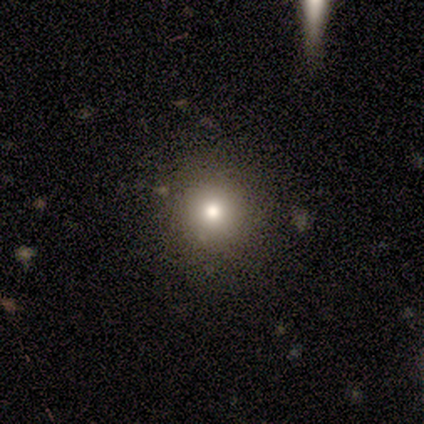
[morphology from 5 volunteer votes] type=featured or disk (40%, tied with star or artifact); edge-on=no (100%); bar=no (100%); spiral arms=no (100%); bulge=large (50%, tied with moderate); merging=none (100%).